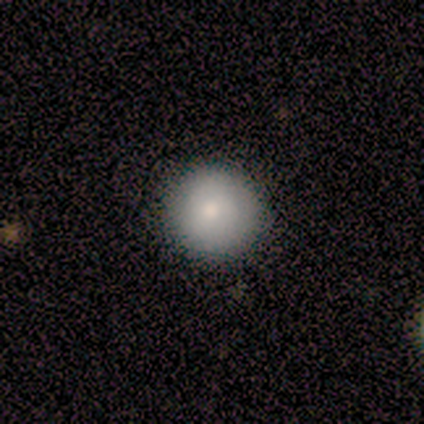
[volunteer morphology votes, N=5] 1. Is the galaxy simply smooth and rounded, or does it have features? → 60% smooth, 20% featured or disk, 20% star or artifact.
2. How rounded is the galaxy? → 67% round, 33% in between, 0% cigar-shaped.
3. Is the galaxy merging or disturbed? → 75% none, 25% minor disturbance, 0% major disturbance, 0% merger.